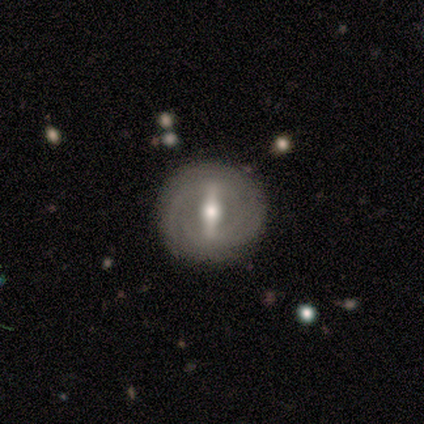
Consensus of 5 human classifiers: Smooth or featured? featured or disk (80%)
Edge-on disk? no (75%)
Bar? strong (100%)
Spiral arms? yes (67%)
Spiral winding? tight (50%, tied with loose)
Spiral arm count? 4 (50%, tied with can't tell)
Bulge size? small (67%)
Merging? none (100%)